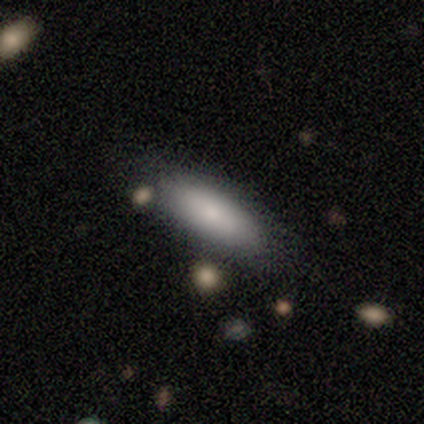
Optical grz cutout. It shows a smooth galaxy with no disk features (72%) that is in between round and cigar-shaped (68%). Merging: none (67%).